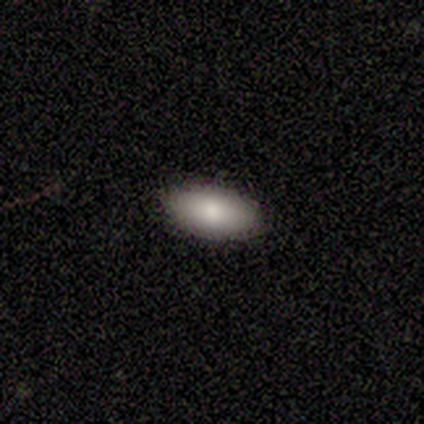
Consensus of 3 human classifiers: Smooth or featured?
  - smooth: 100% *
  - featured or disk: 0%
  - star or artifact: 0%
How rounded?
  - in between: 100% *
  - round: 0%
  - cigar-shaped: 0%
Merging?
  - none: 100% *
  - minor disturbance: 0%
  - major disturbance: 0%
  - merger: 0%